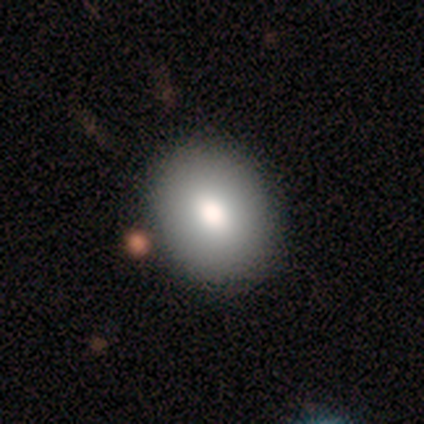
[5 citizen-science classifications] Volunteers were most divided on "how rounded": in between: 67%, round: 33%, cigar-shaped: 0%. More confident: merging — none (100%); smooth or featured — smooth (60%).